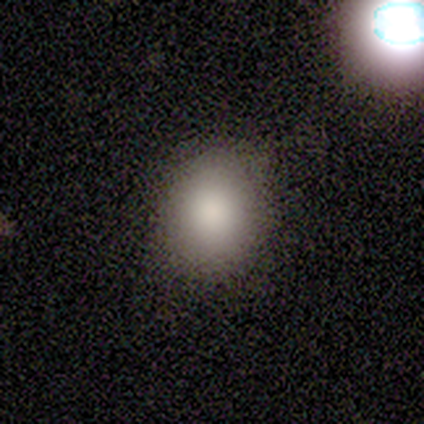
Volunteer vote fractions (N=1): Smooth or featured? star or artifact (100%)